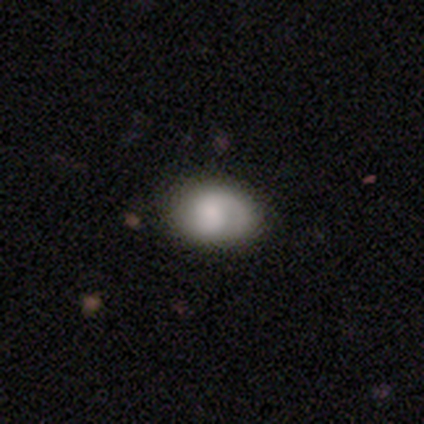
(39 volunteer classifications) smooth-or-featured: smooth: 59% | featured or disk: 38% | star or artifact: 3%
  how-rounded: in between: 83% | round: 17% | cigar-shaped: 0%
  merging: none: 37% | minor disturbance: 21% | major disturbance: 3% | merger: 3%